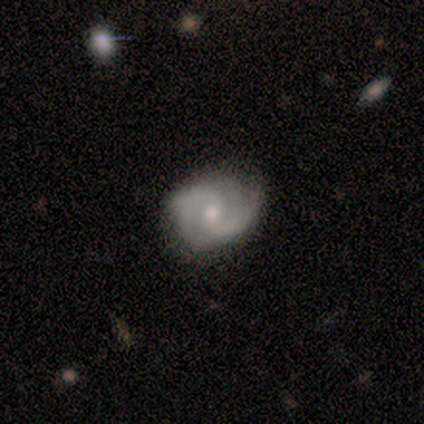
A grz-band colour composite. It shows a featured or disk galaxy (100%) with a weak bar (60%), 2 (80%) tight (60%) spiral arms (100%) and a small central bulge (60%). Merging: none (60%).